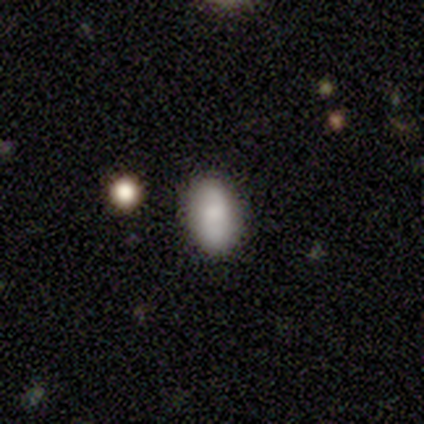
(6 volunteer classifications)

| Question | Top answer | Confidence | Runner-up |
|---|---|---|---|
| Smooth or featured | smooth | 67% | featured or disk (33%) |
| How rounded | in between | 100% | — |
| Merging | none | 100% | — |